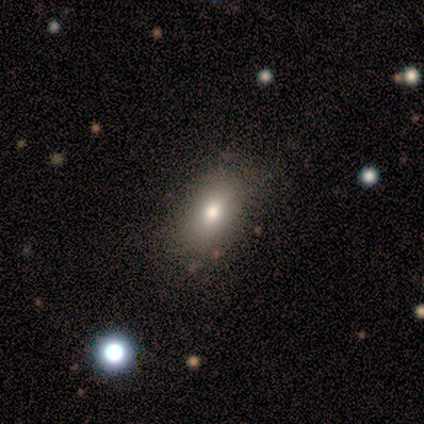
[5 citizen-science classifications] This is clearly a smooth galaxy (80%). How rounded: clearly in between (100%). Merging: clearly none (100%).